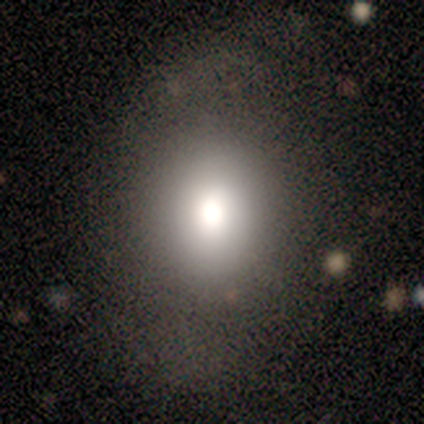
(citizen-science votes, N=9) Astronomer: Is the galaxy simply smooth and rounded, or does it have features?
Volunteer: smooth — 67%.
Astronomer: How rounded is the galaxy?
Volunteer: round — 50%, tied with in between at 50%.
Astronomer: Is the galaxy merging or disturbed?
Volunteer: none — 100%.